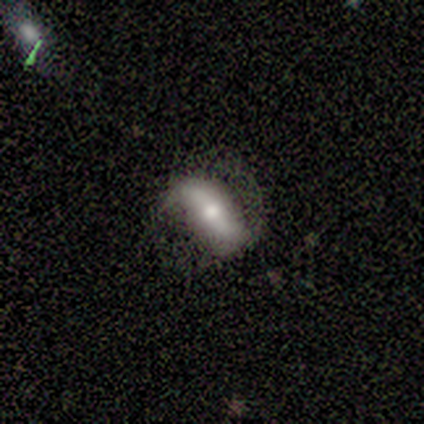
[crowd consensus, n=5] smooth-or-featured: featured or disk: 80% | smooth: 20% | star or artifact: 0%
  disk-edge-on: no: 100% | yes: 0%
    bar: strong: 75% | weak: 25% | no: 0%
    has-spiral-arms: yes: 75% | no: 25%
      spiral-winding: medium: 67% | loose: 33% | tight: 0%
      spiral-arm-count: 2: 100% | 1: 0% | 3: 0% | 4: 0% | more than 4: 0% | can't tell: 0%
    bulge-size: small: 50% | large: 25% | moderate: 25% | dominant: 0% | none: 0%
  merging: none: 80% | major disturbance: 20% | minor disturbance: 0% | merger: 0%